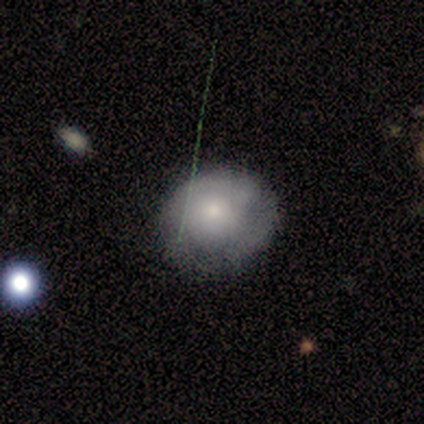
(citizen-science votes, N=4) Smooth or featured: smooth — 50% (tied with featured or disk — 50%)
How rounded: round — 100%
Merging: none — 50% (major disturbance — 25%)